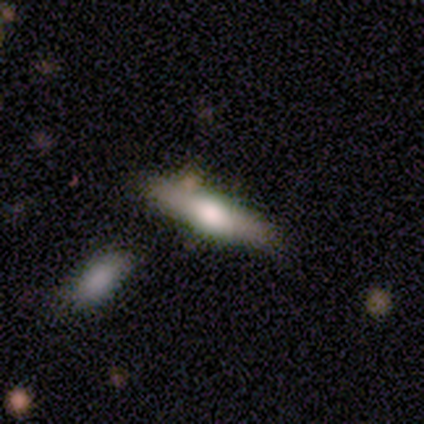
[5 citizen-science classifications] Overall: featured or disk (60%; smooth 40%). Edge-on disk: yes (100%). Edge-on bulge: rounded (100%). Merging: none (80%).